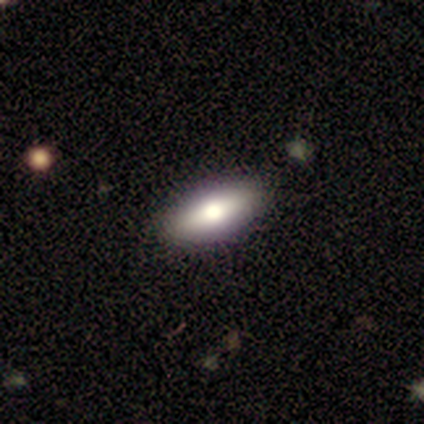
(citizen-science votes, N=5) Smooth or featured? smooth (80%)
How rounded? in between (100%)
Merging? none (75%)